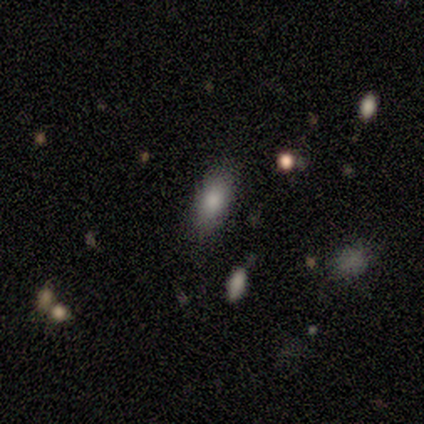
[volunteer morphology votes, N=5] Volunteers were most divided on "smooth or featured": smooth: 80%, star or artifact: 20%, featured or disk: 0%. More confident: how rounded — in between (100%); merging — none (100%).